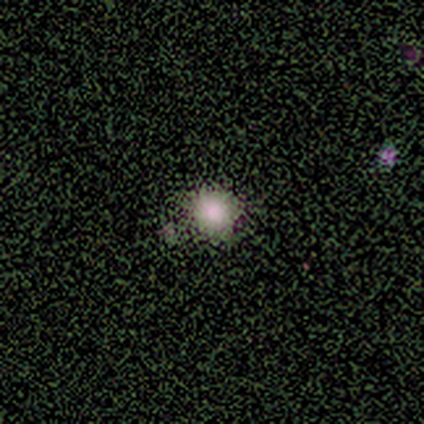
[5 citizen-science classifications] Q: Smooth or featured?
A: smooth (60%); runner-up: star or artifact (40%)
Q: How rounded?
A: round (100%)
Q: Merging?
A: none (67%); runner-up: minor disturbance (33%)